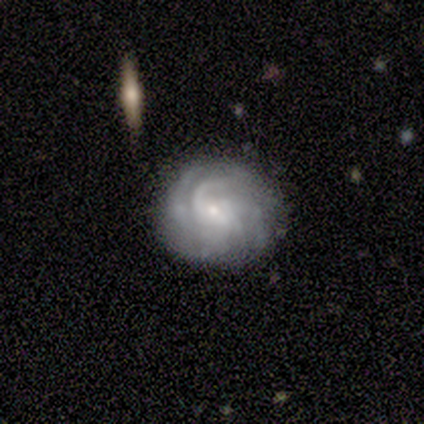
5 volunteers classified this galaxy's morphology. type=featured or disk (80%); edge-on=no (100%); bar=no (75%); spiral arms=yes (75%); winding=tight (67%); arm count=4 (33%, tied with more than 4 and can't tell); bulge=small (100%); merging=none (60%).